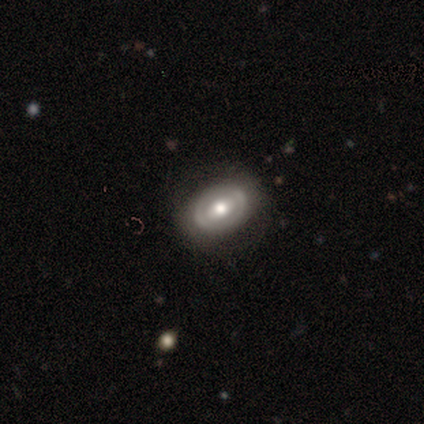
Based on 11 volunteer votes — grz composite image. It shows a featured or disk galaxy (73%) with no bar (50%), no spiral arms (100%) and a moderate central bulge (75%). Merging: none (91%).